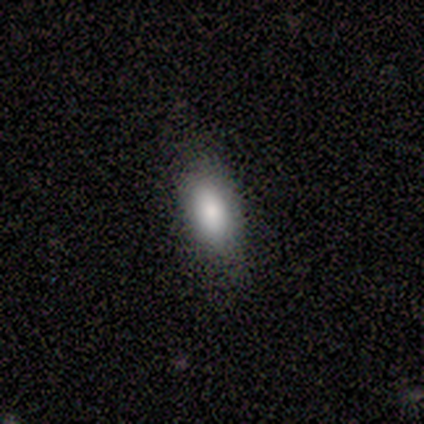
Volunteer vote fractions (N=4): Smooth or featured? featured or disk (50%)
Edge-on disk? no (100%)
Bar? no (100%)
Spiral arms? no (100%)
Bulge size? large (50%, tied with moderate)
Merging? none (100%)